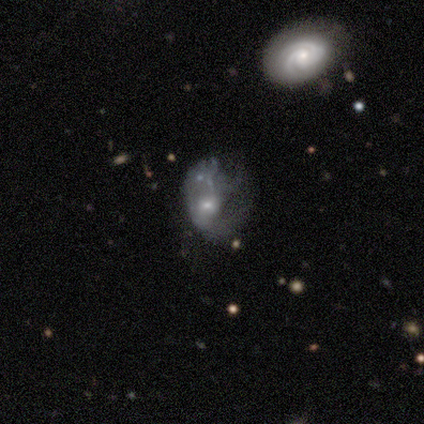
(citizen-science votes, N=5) featured or disk 100%, smooth 0%, star or artifact 0%. Down the decision tree: edge-on disk — no (100%); bar — no (80%); spiral arms — no (60%); bulge size — moderate (60%); merging — major disturbance (80%).